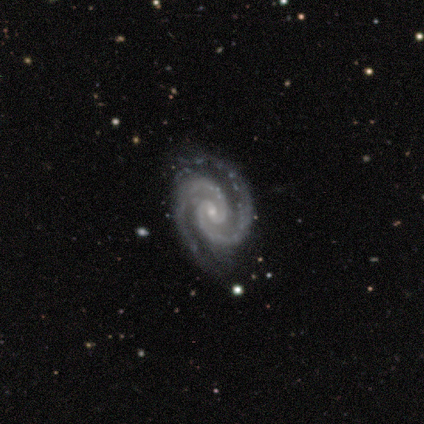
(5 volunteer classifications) This appears to be a featured or disk galaxy (100%) with no bar (100%), 2 (80%) tight (60%) spiral arms (100%) and a small central bulge (80%). Merging: none (100%).